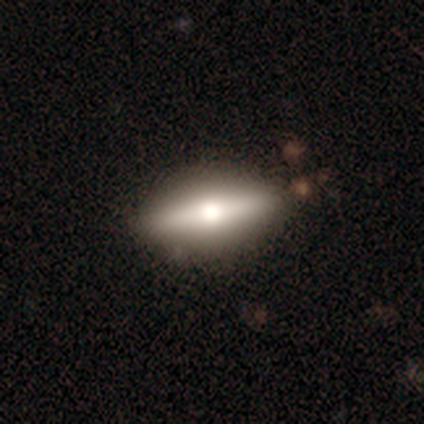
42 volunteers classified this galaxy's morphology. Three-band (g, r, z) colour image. It shows a featured or disk galaxy (62%) viewed edge-on (88%) with a rounded central bulge (96%). Merging: none (82%).